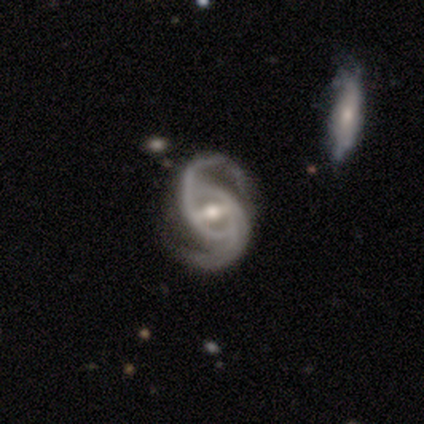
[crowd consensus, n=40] Morphology: type=featured or disk (90%); edge-on=no (100%); bar=strong (58%); spiral arms=yes (97%); winding=medium (63%); arm count=2 (86%); bulge=moderate (67%); merging=none (61%).